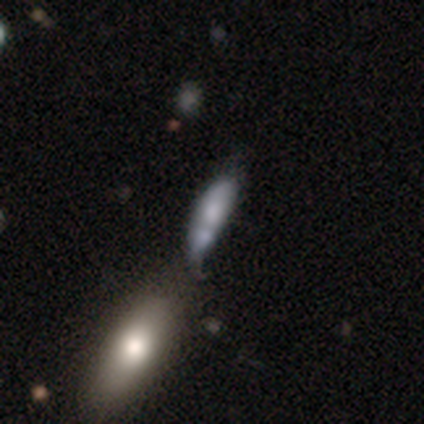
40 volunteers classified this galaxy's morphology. Smooth or featured? 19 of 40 (48%) said featured or disk. Edge-on disk? 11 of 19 (58%) said no. Bar? 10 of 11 (91%) said no. Spiral arms? 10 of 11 (91%) said no. Bulge size? 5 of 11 (45%) said moderate. Merging? 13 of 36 (36%, tied with merger) said minor disturbance.